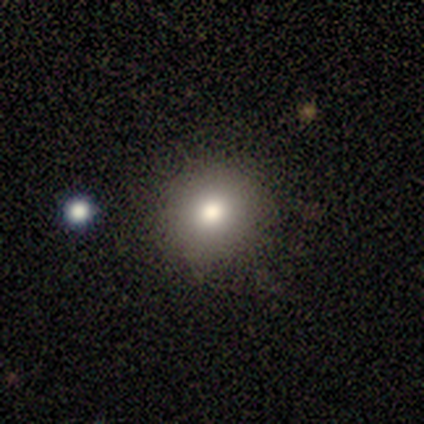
Smooth or featured? 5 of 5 (100%) said smooth. How rounded? 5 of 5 (100%) said round. Merging? 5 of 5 (100%) said none.